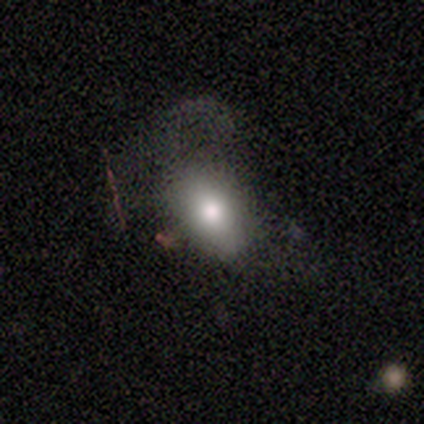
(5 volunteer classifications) This appears to be a featured or disk galaxy (40%, tied with star or artifact) with no bar (100%), no spiral arms (100%) and a large central bulge (50%, tied with small). Merging: major disturbance (100%).